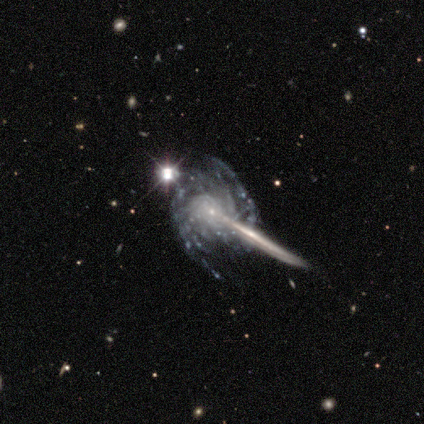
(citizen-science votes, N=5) smooth_or_featured: featured or disk (p=1.00)
disk_edge_on: no (p=0.80) [alt: yes p=0.20]
bar: no (p=1.00)
has_spiral_arms: yes (p=1.00)
spiral_winding: medium (p=0.50) [alt: tight p=0.25]
spiral_arm_count: can't tell (p=0.50) [alt: 3 p=0.25]
bulge_size: small (p=1.00)
merging: major disturbance (p=0.60) [alt: none p=0.20]